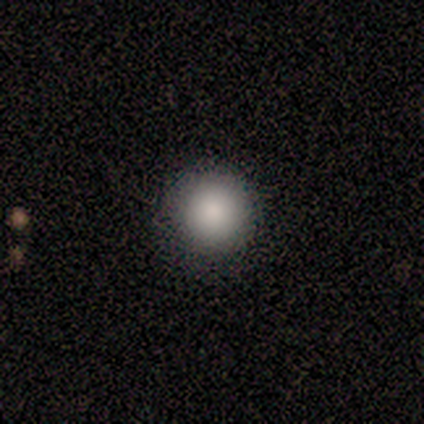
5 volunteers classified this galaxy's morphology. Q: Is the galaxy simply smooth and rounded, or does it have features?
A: smooth — 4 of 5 (80%).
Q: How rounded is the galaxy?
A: round — 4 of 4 (100%).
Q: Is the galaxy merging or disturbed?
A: none — 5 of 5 (100%).